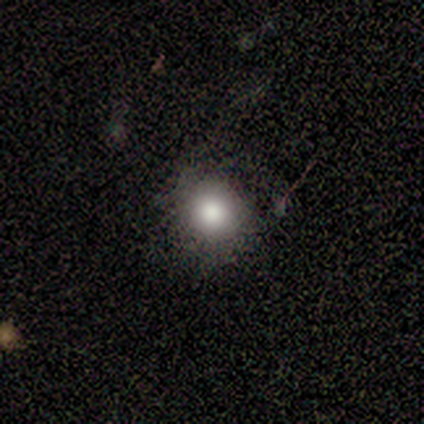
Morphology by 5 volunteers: smooth 60%, star or artifact 40%, featured or disk 0%. Down the decision tree: how rounded — round (100%); merging — none (33%, tied with minor disturbance and major disturbance).